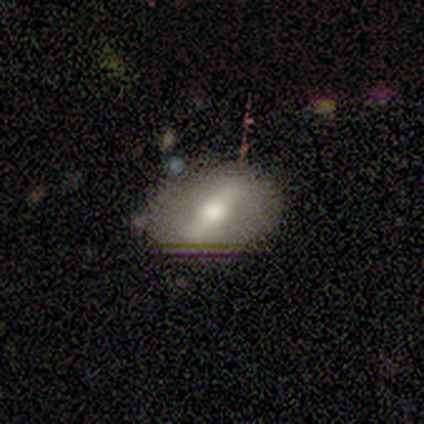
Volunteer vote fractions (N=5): Smooth or featured?
  - featured or disk: 80% *
  - star or artifact: 20%
  - smooth: 0%
Edge-on disk?
  - yes: 50% * (tied)
  - no: 50% * (tied)
Edge-on bulge?
  - rounded: 100% *
  - boxy: 0%
  - none: 0%
Merging?
  - none: 50% *
  - minor disturbance: 25%
  - major disturbance: 25%
  - merger: 0%